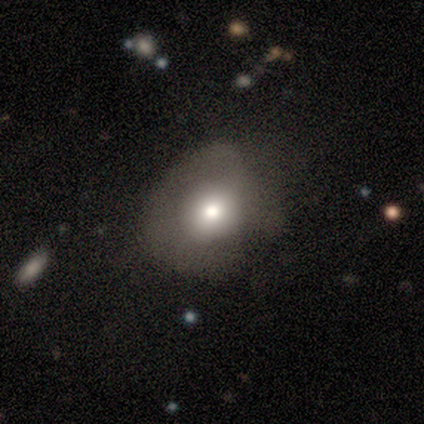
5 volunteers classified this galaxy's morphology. smooth-or-featured: smooth: 80% | featured or disk: 20% | star or artifact: 0%
  how-rounded: round: 75% | in between: 25% | cigar-shaped: 0%
  merging: none: 40% (tied) | major disturbance: 40% (tied) | minor disturbance: 20% | merger: 0%